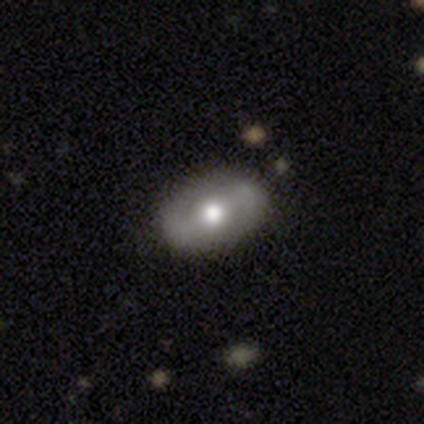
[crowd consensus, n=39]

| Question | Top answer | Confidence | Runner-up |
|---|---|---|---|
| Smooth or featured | featured or disk | 62% | smooth (38%) |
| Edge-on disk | no | 88% | yes (12%) |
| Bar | strong | 43% | weak (38%) |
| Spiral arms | yes | 57% | no (43%) |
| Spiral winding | medium | 58% | tight (25%) |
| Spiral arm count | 2 | 92% | can't tell (8%) |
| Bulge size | moderate | 81% | large (14%) |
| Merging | none | 54% | minor disturbance (5%) |